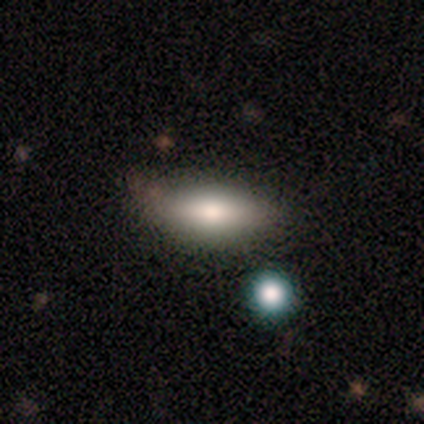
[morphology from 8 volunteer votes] Smooth or featured: smooth — 50% (featured or disk — 38%)
How rounded: in between — 50% (tied with cigar-shaped — 50%)
Merging: none — 86% (merger — 14%)